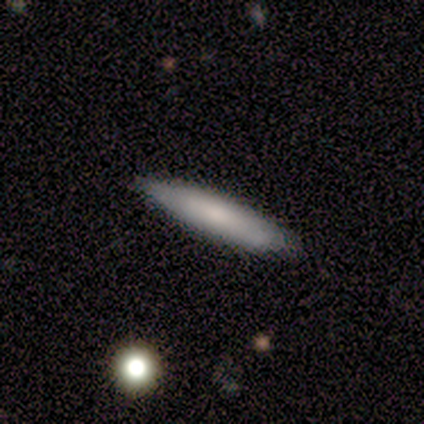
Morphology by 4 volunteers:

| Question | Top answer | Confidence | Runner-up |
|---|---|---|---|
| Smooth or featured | smooth | 50% | featured or disk (25%) |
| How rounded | in between | 50% | tied: cigar-shaped (50%) |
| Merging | none | 100% | — |